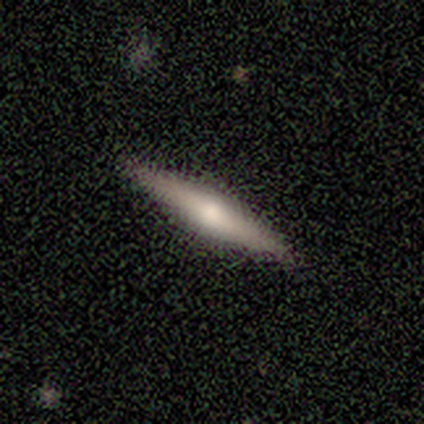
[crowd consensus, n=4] Q: Smooth or featured?
A: featured or disk (75%); runner-up: smooth (25%)
Q: Edge-on disk?
A: yes (100%)
Q: Edge-on bulge?
A: rounded (100%)
Q: Merging?
A: none (75%); runner-up: minor disturbance (25%)